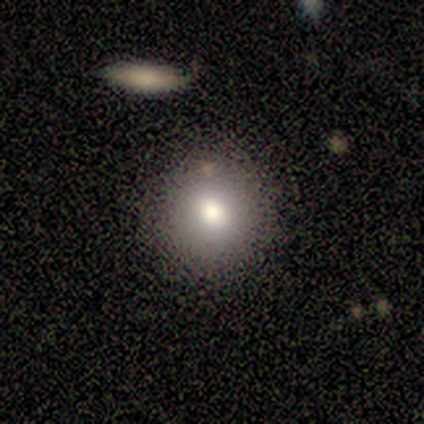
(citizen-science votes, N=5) smooth-or-featured: smooth: 60% | star or artifact: 40% | featured or disk: 0%
  how-rounded: round: 67% | in between: 33% | cigar-shaped: 0%
  merging: none: 67% | minor disturbance: 33% | major disturbance: 0% | merger: 0%